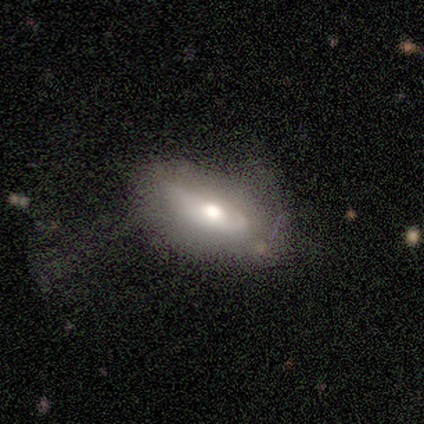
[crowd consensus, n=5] smooth-or-featured: smooth: 60% | featured or disk: 40% | star or artifact: 0%
  how-rounded: in between: 100% | round: 0% | cigar-shaped: 0%
  merging: none: 80% | minor disturbance: 20% | major disturbance: 0% | merger: 0%